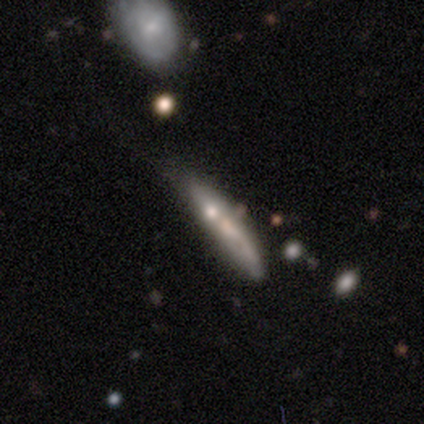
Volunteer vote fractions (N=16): Volunteers were most divided on "smooth or featured" (2-way tie): smooth: 38%, featured or disk: 38%, star or artifact: 25%. More confident: how rounded — cigar-shaped (83%); merging — none (50%).